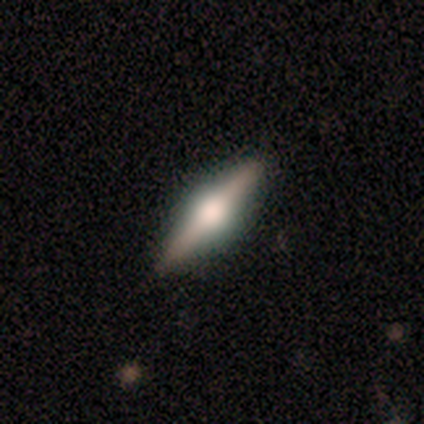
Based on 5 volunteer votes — Smooth or featured?
  - featured or disk: 100% *
  - smooth: 0%
  - star or artifact: 0%
Edge-on disk?
  - yes: 100% *
  - no: 0%
Edge-on bulge?
  - rounded: 100% *
  - boxy: 0%
  - none: 0%
Merging?
  - none: 100% *
  - minor disturbance: 0%
  - major disturbance: 0%
  - merger: 0%